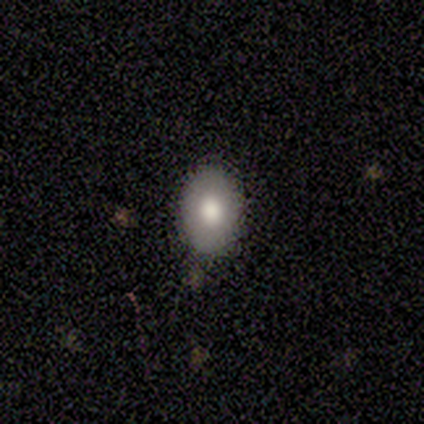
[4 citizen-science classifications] Volunteers were most divided on "smooth or featured" (2-way tie): smooth: 50%, featured or disk: 50%, star or artifact: 0%. More confident: how rounded — in between (100%); merging — none (75%).